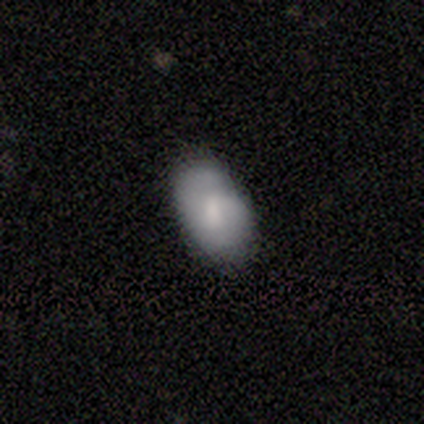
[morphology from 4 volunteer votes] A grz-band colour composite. It shows a smooth galaxy with no disk features (50%, tied with featured or disk) that is in between round and cigar-shaped (100%). Merging: none (75%).